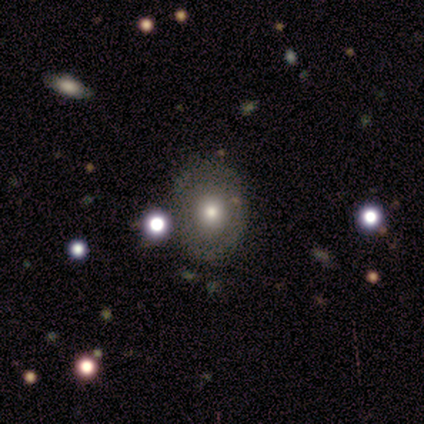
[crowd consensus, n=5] Smooth or featured?
  - smooth: 80% *
  - star or artifact: 20%
  - featured or disk: 0%
How rounded?
  - in between: 75% *
  - round: 25%
  - cigar-shaped: 0%
Merging?
  - none: 100% *
  - minor disturbance: 0%
  - major disturbance: 0%
  - merger: 0%